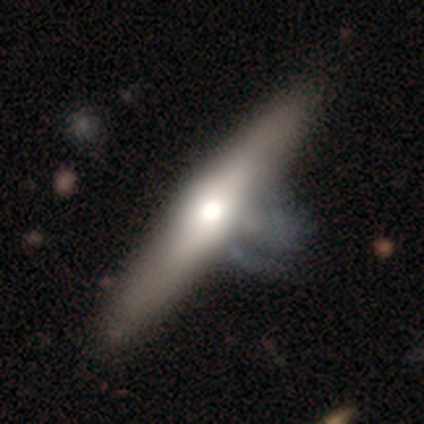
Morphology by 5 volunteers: Volunteers were most divided on "smooth or featured": smooth: 60%, featured or disk: 40%, star or artifact: 0%. More confident: how rounded — cigar-shaped (100%); merging — none (80%).